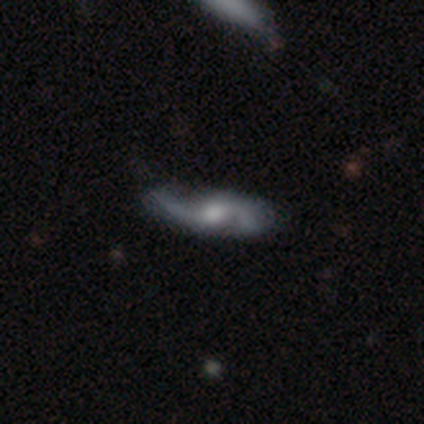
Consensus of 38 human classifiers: A featured or disk galaxy (87%) with no bar (50%), 2 (90%) loose (69%) spiral arms (97%) and a moderate central bulge (40%). Merging: none (65%).